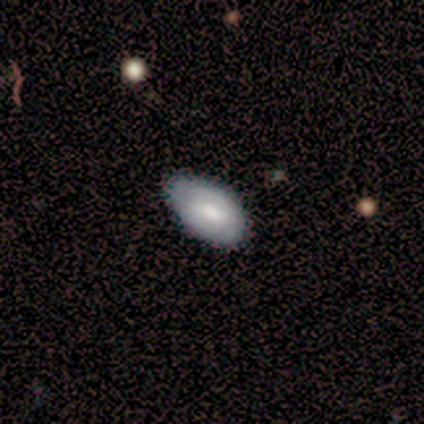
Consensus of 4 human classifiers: Smooth or featured? smooth (75%)
How rounded? in between (100%)
Merging? none (67%)